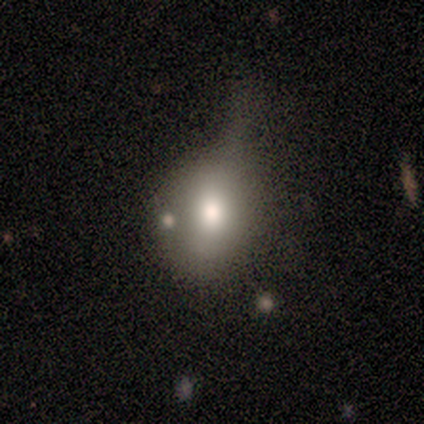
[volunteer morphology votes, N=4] Q: Smooth or featured?
A: smooth (50%); runner-up: featured or disk (25%)
Q: How rounded?
A: round (50%); tied with: in between (50%)
Q: Merging?
A: minor disturbance (67%); runner-up: none (33%)